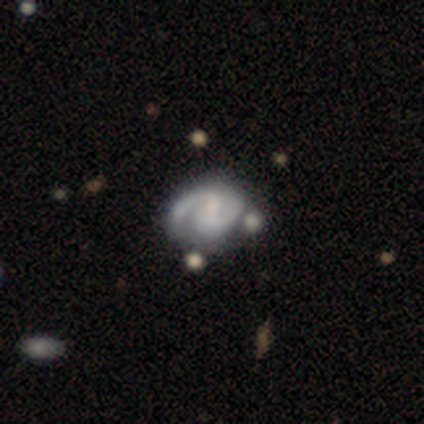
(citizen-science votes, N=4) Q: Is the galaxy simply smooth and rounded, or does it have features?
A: featured or disk — 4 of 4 (100%).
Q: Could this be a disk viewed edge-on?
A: no — 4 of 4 (100%).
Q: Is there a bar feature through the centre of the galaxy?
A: strong — 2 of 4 (50%, tied with no).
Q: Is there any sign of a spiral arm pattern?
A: yes — 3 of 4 (75%).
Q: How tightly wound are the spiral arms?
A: medium — 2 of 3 (67%).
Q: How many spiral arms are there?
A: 2 — 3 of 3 (100%).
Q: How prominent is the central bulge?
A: large — 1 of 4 (25%, tied with moderate, small and none).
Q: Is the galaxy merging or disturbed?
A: minor disturbance — 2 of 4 (50%).